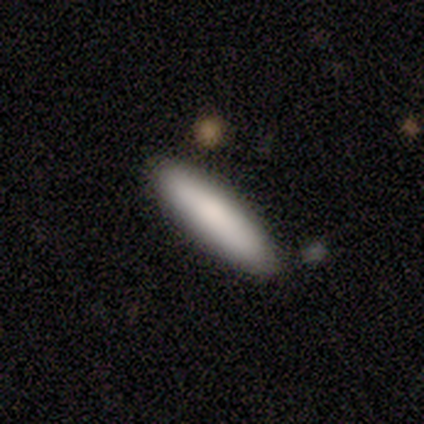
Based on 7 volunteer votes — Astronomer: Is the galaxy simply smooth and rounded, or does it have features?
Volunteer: smooth — 100%.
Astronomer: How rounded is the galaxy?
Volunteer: in between — 57% (runner-up: cigar-shaped, 43%).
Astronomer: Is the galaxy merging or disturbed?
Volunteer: none — 86%.